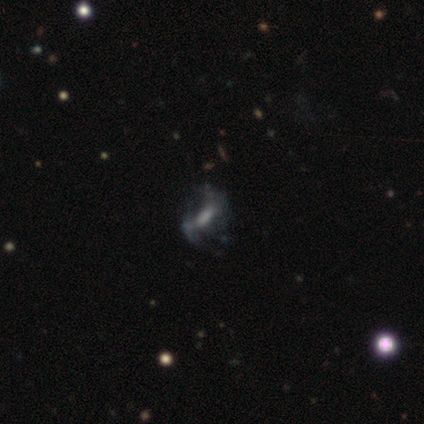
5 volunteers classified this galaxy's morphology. smooth-or-featured: featured or disk: 60% | smooth: 40% | star or artifact: 0%
  disk-edge-on: no: 100% | yes: 0%
    bar: strong: 33% (tied) | weak: 33% (tied) | no: 33% (tied)
    has-spiral-arms: yes: 100% | no: 0%
      spiral-winding: loose: 67% | tight: 33% | medium: 0%
      spiral-arm-count: 2: 100% | 1: 0% | 3: 0% | 4: 0% | more than 4: 0% | can't tell: 0%
    bulge-size: moderate: 67% | small: 33% | dominant: 0% | large: 0% | none: 0%
  merging: none: 80% | minor disturbance: 20% | major disturbance: 0% | merger: 0%